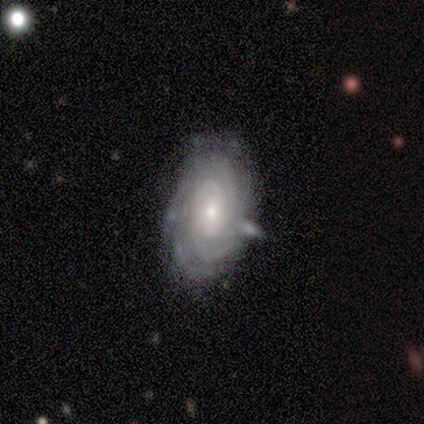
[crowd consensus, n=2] This appears to be a featured or disk galaxy (100%) viewed edge-on (50%, tied with no) with a rounded central bulge (100%). Merging: none (50%, tied with minor disturbance).